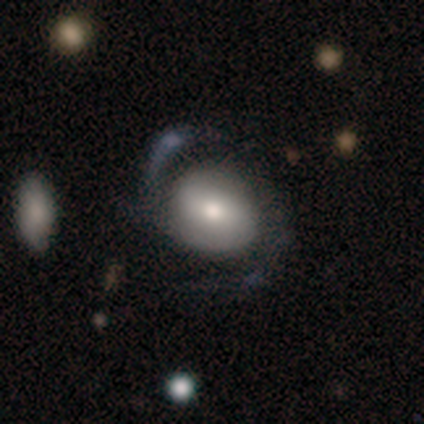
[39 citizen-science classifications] smooth-or-featured: featured or disk: 59% | smooth: 38% | star or artifact: 3%
  disk-edge-on: no: 100% | yes: 0%
    bar: no: 52% | weak: 39% | strong: 9%
    has-spiral-arms: yes: 87% | no: 13%
      spiral-winding: medium: 60% | loose: 35% | tight: 5%
      spiral-arm-count: 2: 95% | more than 4: 5% | 1: 0% | 3: 0% | 4: 0% | can't tell: 0%
    bulge-size: moderate: 65% | small: 22% | large: 9% | dominant: 4% | none: 0%
  merging: none: 50% | major disturbance: 26% | minor disturbance: 21% | merger: 3%